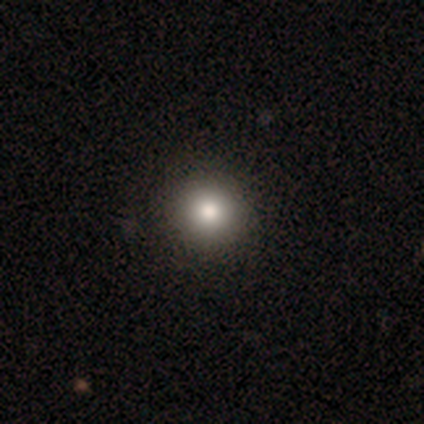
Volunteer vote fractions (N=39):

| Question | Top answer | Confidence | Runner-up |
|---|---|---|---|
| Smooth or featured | smooth | 79% | featured or disk (10%) |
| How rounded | round | 97% | in between (3%) |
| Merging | none | 74% | minor disturbance (3%) |